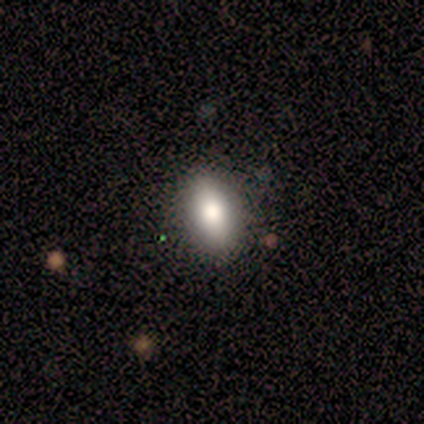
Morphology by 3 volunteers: This appears to be a smooth galaxy with no disk features (100%) that is in between round and cigar-shaped (67%). Merging: none (100%).